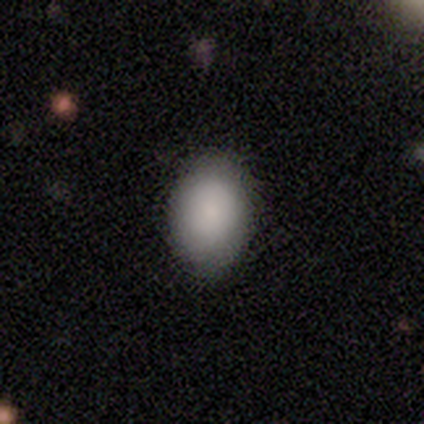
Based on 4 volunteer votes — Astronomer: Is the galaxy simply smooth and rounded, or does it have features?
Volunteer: smooth — 75%.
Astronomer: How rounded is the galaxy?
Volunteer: in between — 100%.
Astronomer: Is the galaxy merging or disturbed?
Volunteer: none — 100%.